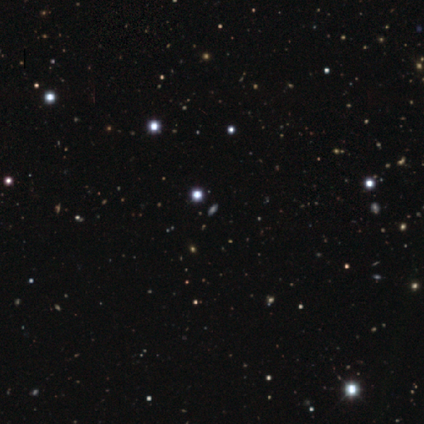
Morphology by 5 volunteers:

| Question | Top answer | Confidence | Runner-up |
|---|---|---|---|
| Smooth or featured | star or artifact | 80% | smooth (20%) |